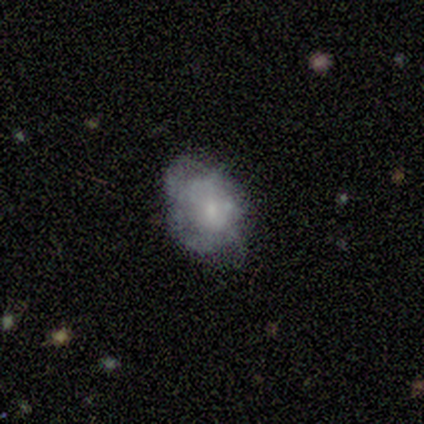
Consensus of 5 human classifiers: Smooth or featured: smooth — 80% (featured or disk — 20%)
How rounded: in between — 75% (round — 25%)
Merging: none — 40% (tied with minor disturbance — 40%)